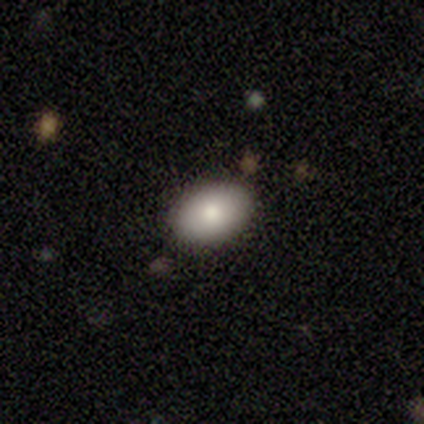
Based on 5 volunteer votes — smooth_or_featured: smooth (p=0.80) [alt: star or artifact p=0.20]
how_rounded: in between (p=1.00)
merging: none (p=1.00)